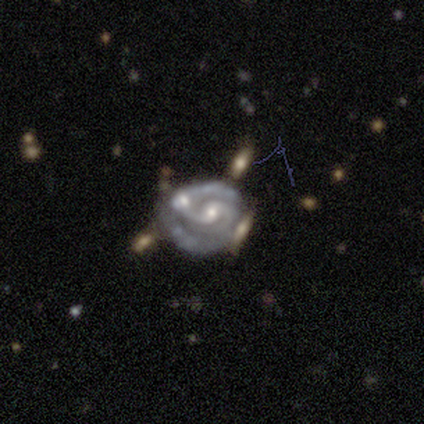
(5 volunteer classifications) Smooth or featured? featured or disk (100%)
Edge-on disk? no (100%)
Bar? no (60%)
Spiral arms? yes (100%)
Spiral winding? tight (40%, tied with medium)
Spiral arm count? 2 (60%)
Bulge size? small (60%)
Merging? none (60%)